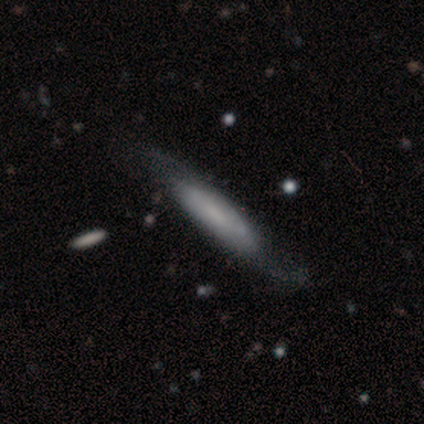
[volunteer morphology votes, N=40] Smooth or featured? featured or disk (52%)
Edge-on disk? no (67%)
Bar? no (64%)
Spiral arms? yes (57%)
Spiral winding? loose (50%)
Spiral arm count? 2 (50%, tied with can't tell)
Bulge size? none (64%)
Merging? none (55%)